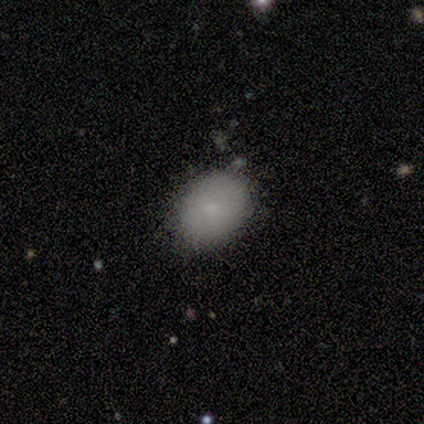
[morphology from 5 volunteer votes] A smooth galaxy with no disk features (60%) that is in between round and cigar-shaped (100%). Merging: none (75%).